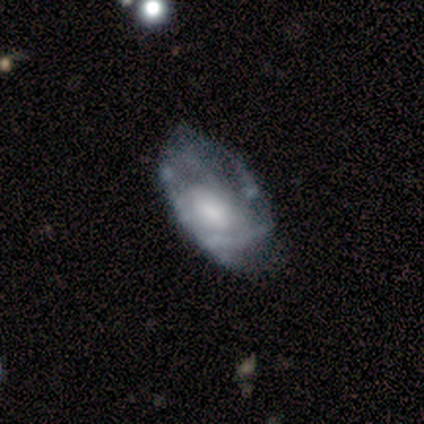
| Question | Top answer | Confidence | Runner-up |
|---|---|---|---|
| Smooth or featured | featured or disk | 71% | smooth (29%) |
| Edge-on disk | no | 80% | yes (20%) |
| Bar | weak | 50% | tied: no (50%) |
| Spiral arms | yes | 50% | tied: no (50%) |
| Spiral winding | tight | 50% | tied: medium (50%) |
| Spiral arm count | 3 | 50% | tied: can't tell (50%) |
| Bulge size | moderate | 50% | dominant (25%) |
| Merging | minor disturbance | 43% | none (29%) |